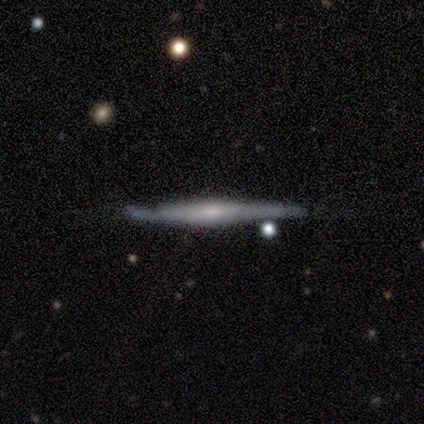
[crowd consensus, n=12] A featured or disk galaxy (58%) viewed edge-on (100%) with a rounded central bulge (57%). Merging: minor disturbance (64%).